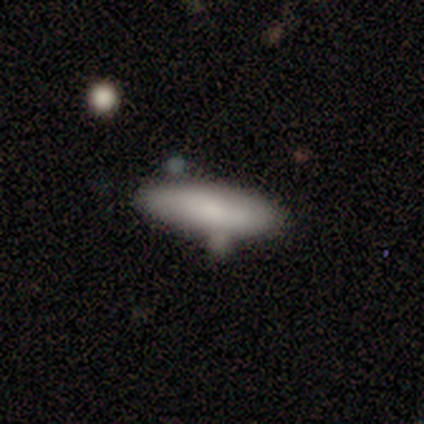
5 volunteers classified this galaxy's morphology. smooth_or_featured: smooth (p=1.00)
how_rounded: cigar-shaped (p=0.60) [alt: in between p=0.40]
merging: none (p=0.80) [alt: minor disturbance p=0.20]